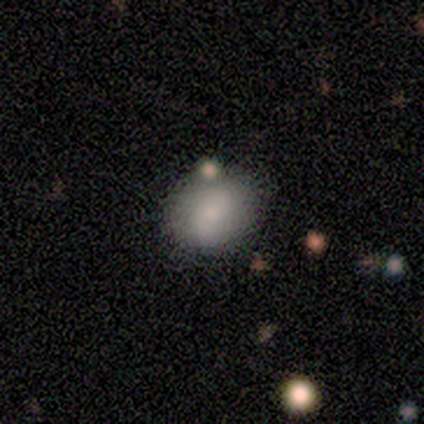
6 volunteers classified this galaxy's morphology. smooth_or_featured: smooth (p=0.83) [alt: featured or disk p=0.17]
how_rounded: round (p=0.80) [alt: in between p=0.20]
merging: none (p=0.83) [alt: minor disturbance p=0.17]